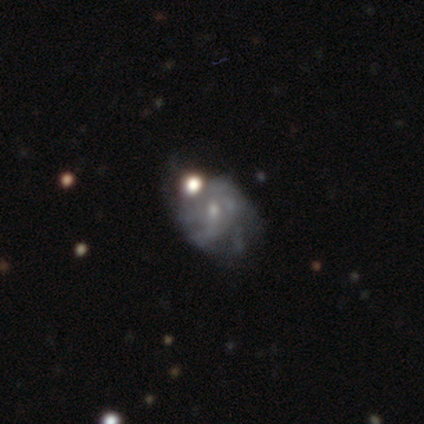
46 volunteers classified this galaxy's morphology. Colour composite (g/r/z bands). It shows a featured or disk galaxy (76%) with no bar (73%), tight (43%) spiral arms (70%) and a small central bulge (73%). Merging: none (35%).